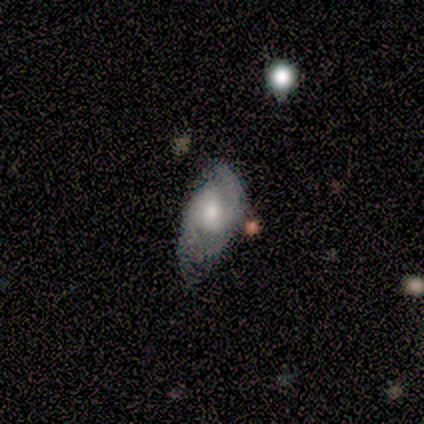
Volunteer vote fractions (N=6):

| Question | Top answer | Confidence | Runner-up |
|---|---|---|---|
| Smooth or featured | featured or disk | 83% | smooth (17%) |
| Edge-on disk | no | 100% | — |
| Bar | weak | 40% | tied: no (40%) |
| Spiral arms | yes | 100% | — |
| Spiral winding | medium | 40% | tied: loose (40%) |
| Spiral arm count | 2 | 80% | 3 (20%) |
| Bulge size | moderate | 100% | — |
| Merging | none | 83% | minor disturbance (17%) |